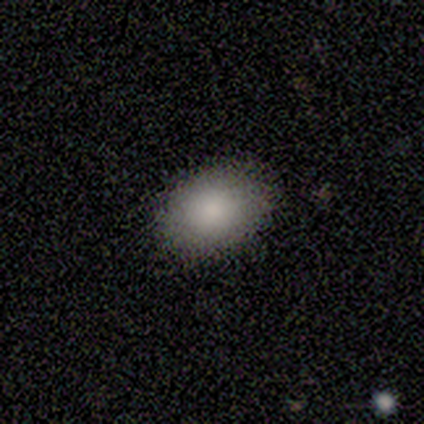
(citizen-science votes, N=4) Morphology: type=smooth (75%); roundness=in between (100%); merging=none (100%).